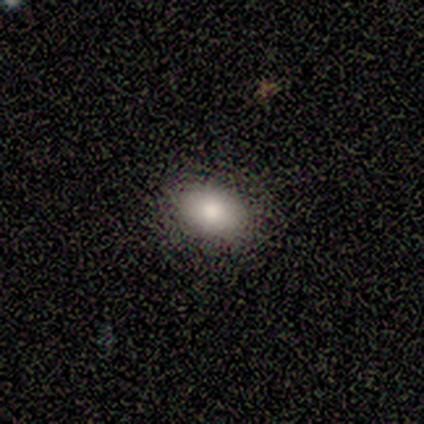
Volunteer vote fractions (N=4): Volunteers were most divided on "how rounded" (2-way tie): round: 50%, in between: 50%, cigar-shaped: 0%. More confident: merging — none (100%); smooth or featured — smooth (50%).